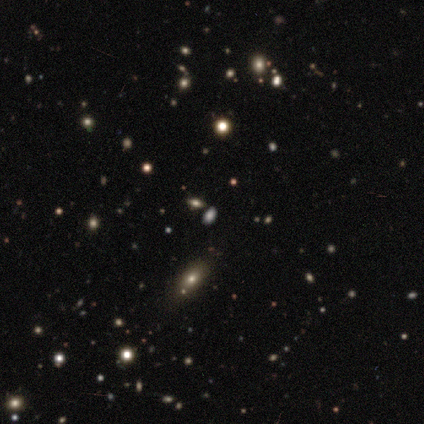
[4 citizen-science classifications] This appears to be a smooth galaxy with no disk features (50%) that is round (50%, tied with in between). Merging: none (100%).